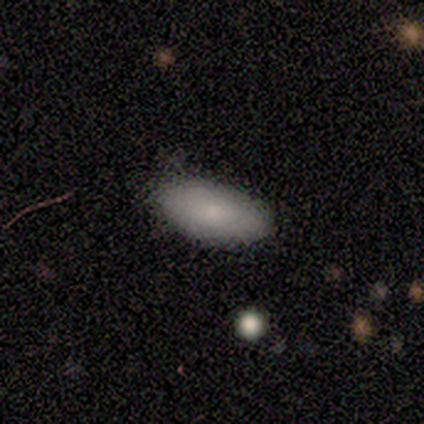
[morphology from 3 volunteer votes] smooth 100%, featured or disk 0%, star or artifact 0%. Down the decision tree: how rounded — in between (100%); merging — none (100%).